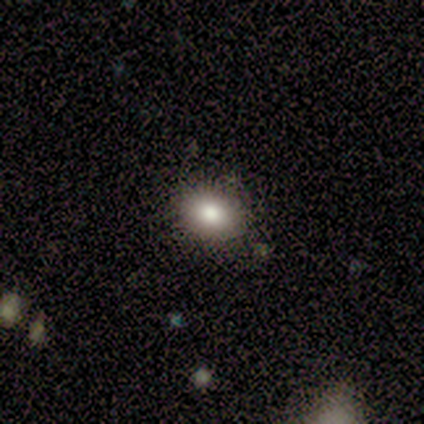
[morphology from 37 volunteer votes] smooth-or-featured: smooth: 78% | star or artifact: 16% | featured or disk: 5%
  how-rounded: in between: 72% | round: 28% | cigar-shaped: 0%
  merging: none: 87% | minor disturbance: 13% | major disturbance: 0% | merger: 0%